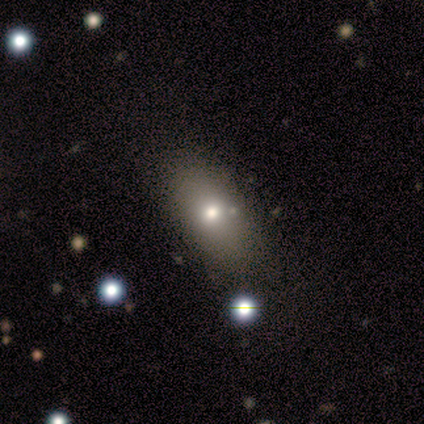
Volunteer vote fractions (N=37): Morphology: type=smooth (76%); roundness=in between (86%); merging=none (74%).